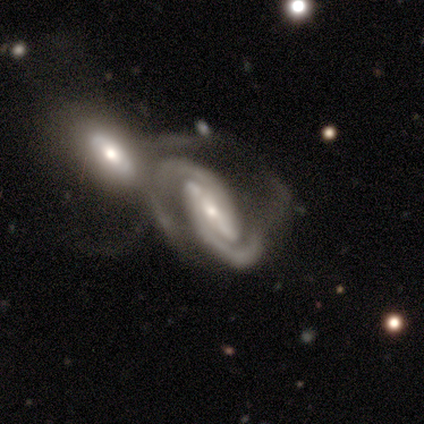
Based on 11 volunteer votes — Smooth or featured?
  - featured or disk: 100% *
  - smooth: 0%
  - star or artifact: 0%
Edge-on disk?
  - no: 91% *
  - yes: 9%
Bar?
  - strong: 60% *
  - weak: 30%
  - no: 10%
Spiral arms?
  - yes: 100% *
  - no: 0%
Spiral winding?
  - tight: 80% *
  - medium: 20%
  - loose: 0%
Spiral arm count?
  - 2: 100% *
  - 1: 0%
  - 3: 0%
  - 4: 0%
  - more than 4: 0%
  - can't tell: 0%
Bulge size?
  - small: 80% *
  - moderate: 20%
  - dominant: 0%
  - large: 0%
  - none: 0%
Merging?
  - merger: 73% *
  - major disturbance: 18%
  - minor disturbance: 9%
  - none: 0%